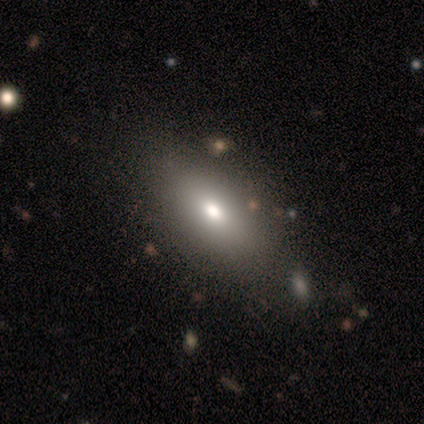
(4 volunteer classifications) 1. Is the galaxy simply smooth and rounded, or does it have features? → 75% smooth, 25% star or artifact, 0% featured or disk.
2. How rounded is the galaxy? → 100% in between, 0% round, 0% cigar-shaped.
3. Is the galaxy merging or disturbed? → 67% none, 33% minor disturbance, 0% major disturbance, 0% merger.